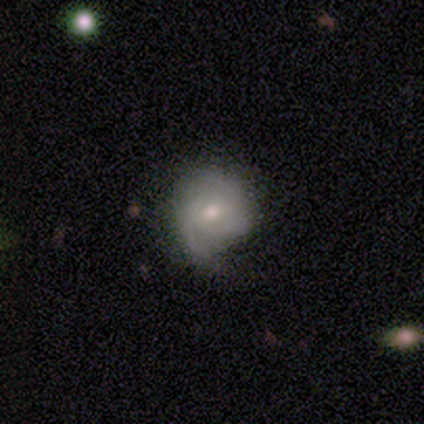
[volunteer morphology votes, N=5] A featured or disk galaxy (80%) with no bar (75%), 1 (50%) loose (75%) spiral arms (100%) and a small central bulge (75%).

Vote fractions:
- Smooth or featured? featured or disk: 80% / smooth: 20% / star or artifact: 0%
- Edge-on disk? no: 100% / yes: 0%
- Bar? no: 75% / weak: 25% / strong: 0%
- Spiral arms? yes: 100% / no: 0%
- Spiral winding? loose: 75% / medium: 25% / tight: 0%
- Spiral arm count? 1: 50% / 3: 25% / can't tell: 25% / 2: 0% / 4: 0% / more than 4: 0%
- Bulge size? small: 75% / moderate: 25% / dominant: 0% / large: 0% / none: 0%
- Merging? none: 60% / minor disturbance: 40% / major disturbance: 0% / merger: 0%